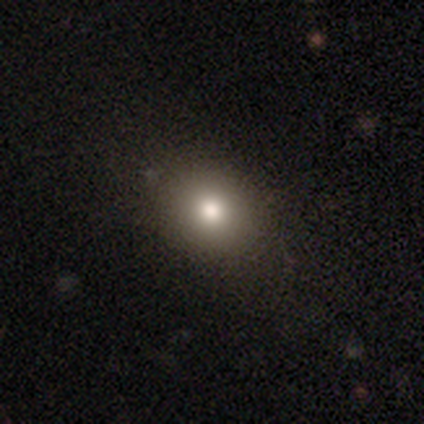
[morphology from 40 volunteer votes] smooth_or_featured: smooth (p=0.82) [alt: featured or disk p=0.12]
how_rounded: round (p=0.61) [alt: in between p=0.39]
merging: none (p=0.58) [alt: minor disturbance p=0.03]